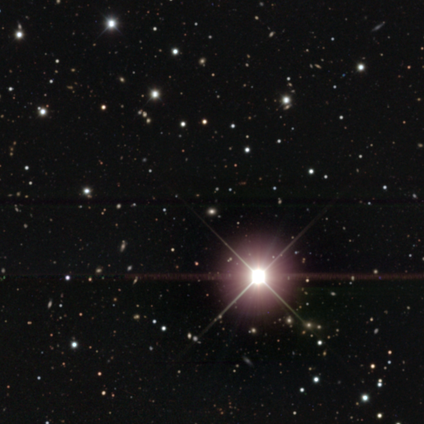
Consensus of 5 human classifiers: Smooth or featured?
  - star or artifact: 100% *
  - smooth: 0%
  - featured or disk: 0%